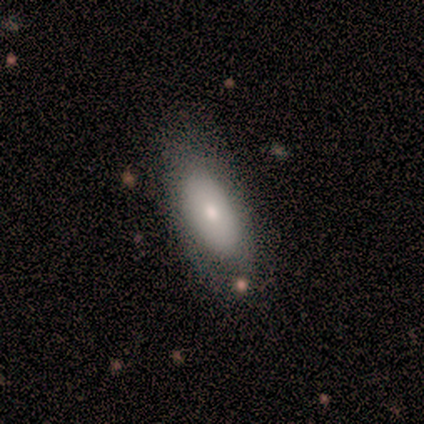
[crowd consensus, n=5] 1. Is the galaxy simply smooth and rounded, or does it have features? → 60% smooth, 40% featured or disk, 0% star or artifact.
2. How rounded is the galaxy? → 100% in between, 0% round, 0% cigar-shaped.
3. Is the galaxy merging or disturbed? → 100% none, 0% minor disturbance, 0% major disturbance, 0% merger.